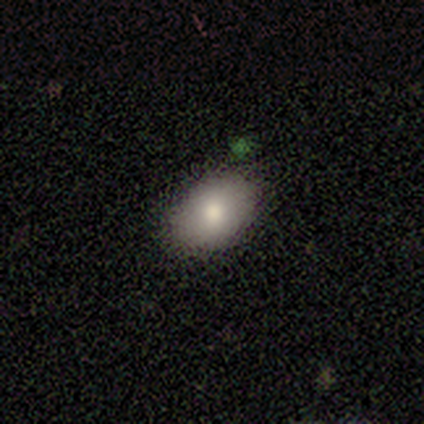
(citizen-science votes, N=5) Volunteers were most divided on "merging": none: 60%, minor disturbance: 40%, major disturbance: 0%, merger: 0%. More confident: smooth or featured — smooth (100%); how rounded — in between (80%).